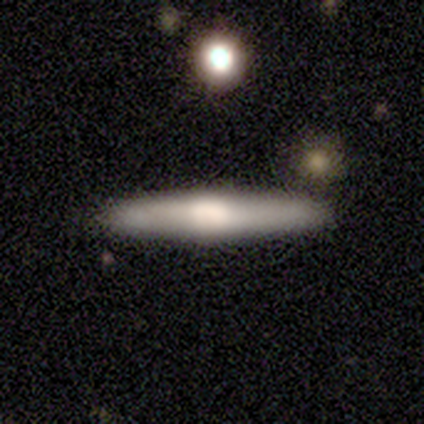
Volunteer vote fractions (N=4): smooth-or-featured: featured or disk: 100% | smooth: 0% | star or artifact: 0%
  disk-edge-on: yes: 100% | no: 0%
    edge-on-bulge: rounded: 75% | none: 25% | boxy: 0%
  merging: none: 75% | minor disturbance: 25% | major disturbance: 0% | merger: 0%